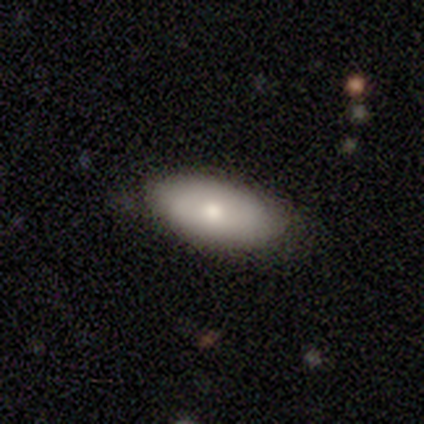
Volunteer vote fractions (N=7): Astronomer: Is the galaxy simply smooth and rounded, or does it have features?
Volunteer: smooth — 57% (runner-up: featured or disk, 43%).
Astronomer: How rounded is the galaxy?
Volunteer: in between — 100%.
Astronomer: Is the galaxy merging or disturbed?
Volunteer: none — 100%.